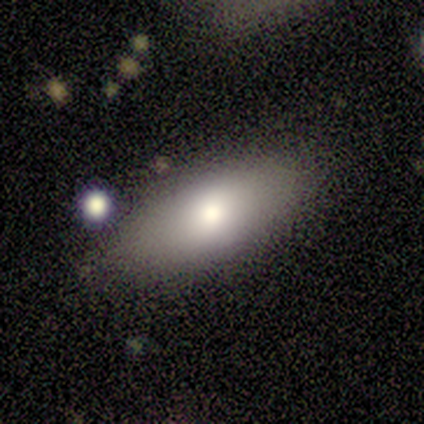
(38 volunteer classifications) This appears to be a smooth galaxy with no disk features (79%) that is in between round and cigar-shaped (77%). Merging: none (76%).